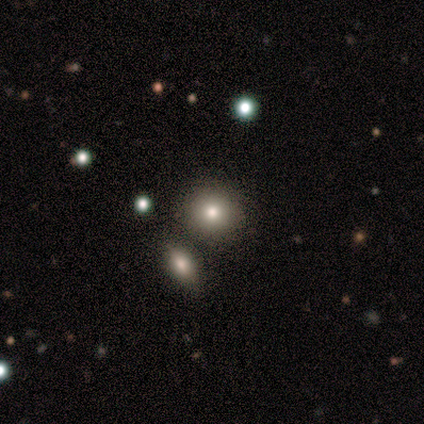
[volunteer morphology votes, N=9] type=smooth (78%); roundness=round (71%); merging=none (50%).